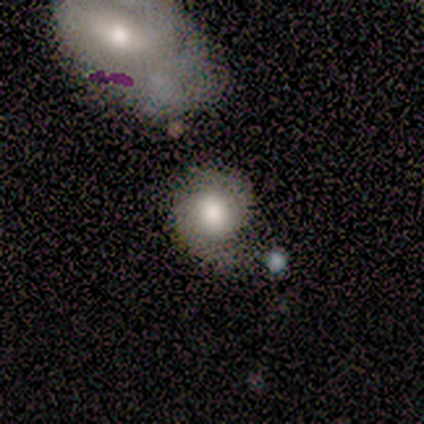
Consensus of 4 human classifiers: Overall: featured or disk (50%; smooth 25%). Edge-on disk: no (100%). Bar: no (100%). Spiral arms: yes (100%). Spiral arm count: 1 (50%, tied with 2). Spiral winding: tight (100%). Bulge size: moderate (100%). Merging: none (67%; major disturbance 33%).